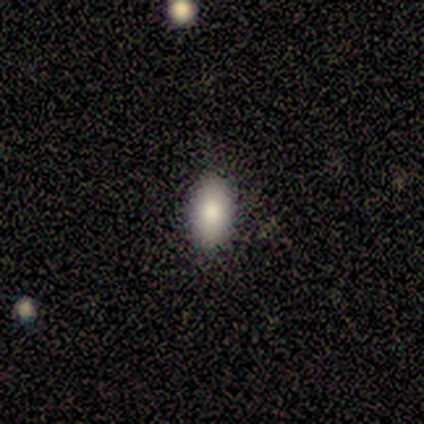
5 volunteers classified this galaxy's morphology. Q: Smooth or featured?
A: smooth (100%)
Q: How rounded?
A: in between (80%); runner-up: round (20%)
Q: Merging?
A: none (100%)